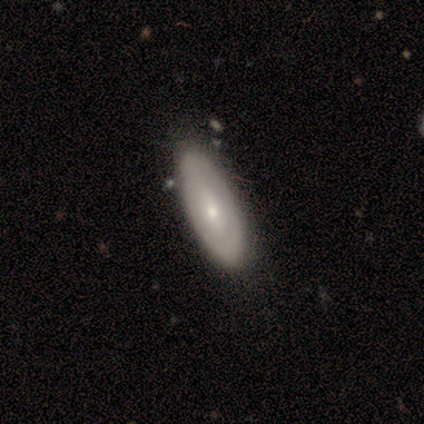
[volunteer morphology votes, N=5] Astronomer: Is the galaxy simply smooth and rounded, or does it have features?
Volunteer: featured or disk — 80%.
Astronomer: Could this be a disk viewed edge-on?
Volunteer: no — 100%.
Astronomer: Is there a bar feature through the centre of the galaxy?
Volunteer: weak — 75%.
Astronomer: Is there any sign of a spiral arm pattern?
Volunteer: yes — 50%, tied with no at 50%.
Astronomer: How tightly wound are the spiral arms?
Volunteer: tight — 100%.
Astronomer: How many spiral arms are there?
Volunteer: can't tell — 100%.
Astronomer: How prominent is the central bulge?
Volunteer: small — 100%.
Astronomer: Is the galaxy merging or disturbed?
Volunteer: none — 100%.